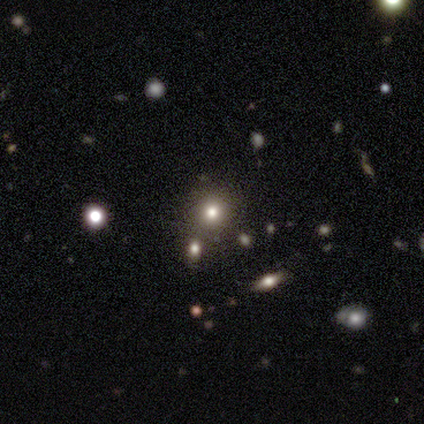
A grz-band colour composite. It shows a smooth galaxy with no disk features (50%) that is round (100%). Merging: none (67%).